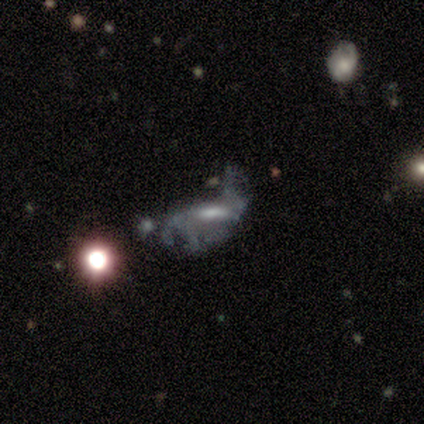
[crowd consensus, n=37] Smooth or featured? 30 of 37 (81%) said featured or disk. Edge-on disk? 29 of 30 (97%) said no. Bar? 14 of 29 (48%) said no. Spiral arms? 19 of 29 (66%) said no. Bulge size? 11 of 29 (38%) said moderate. Merging? 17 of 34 (50%) said major disturbance.